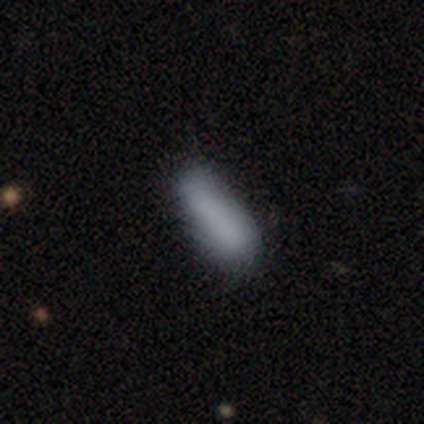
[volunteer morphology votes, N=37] Smooth or featured? smooth (86%)
How rounded? in between (59%)
Merging? none (57%)